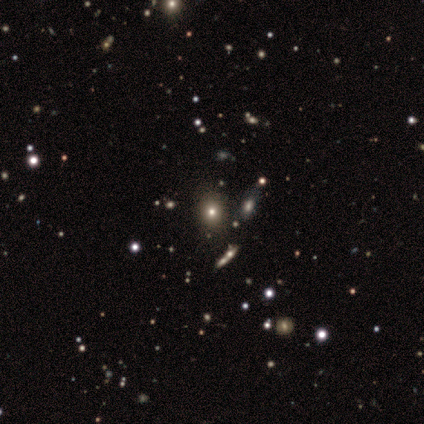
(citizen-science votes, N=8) Overall: smooth (50%; star or artifact 38%). How rounded: round (100%). Merging: none (100%).